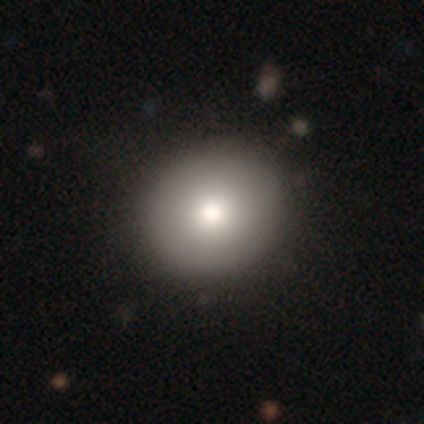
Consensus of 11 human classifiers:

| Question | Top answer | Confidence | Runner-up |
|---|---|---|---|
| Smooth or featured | smooth | 82% | featured or disk (18%) |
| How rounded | round | 89% | in between (11%) |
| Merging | none | 82% | minor disturbance (9%) |